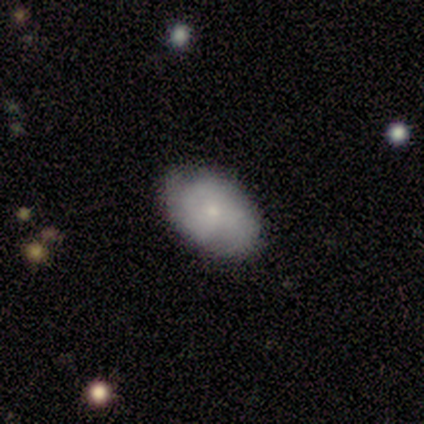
Overall: smooth (43%, tied with featured or disk). How rounded: in between (100%). Merging: none (67%; minor disturbance 33%).